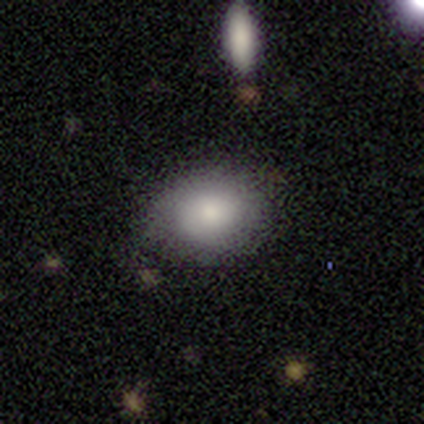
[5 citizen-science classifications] Smooth or featured? smooth (60%)
How rounded? in between (67%)
Merging? none (80%)